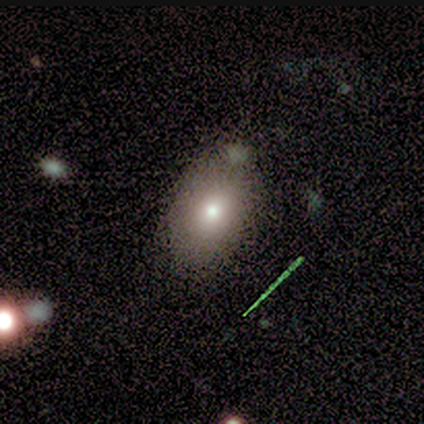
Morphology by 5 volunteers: This appears to be a smooth galaxy with no disk features (80%) that is in between round and cigar-shaped (100%). Merging: none (100%).